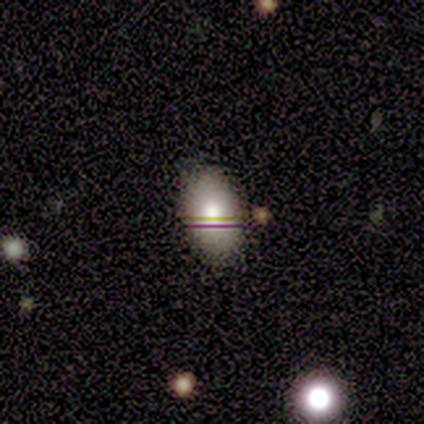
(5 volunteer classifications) This is likely a smooth galaxy (60%). How rounded: clearly in between (100%). Merging: likely none (75%).